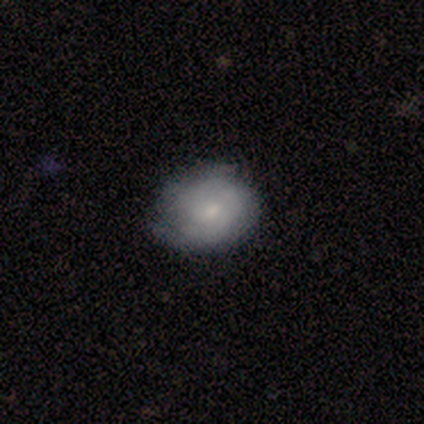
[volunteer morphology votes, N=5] Q: Smooth or featured?
A: smooth (100%)
Q: How rounded?
A: round (60%); runner-up: in between (40%)
Q: Merging?
A: none (60%); runner-up: minor disturbance (40%)